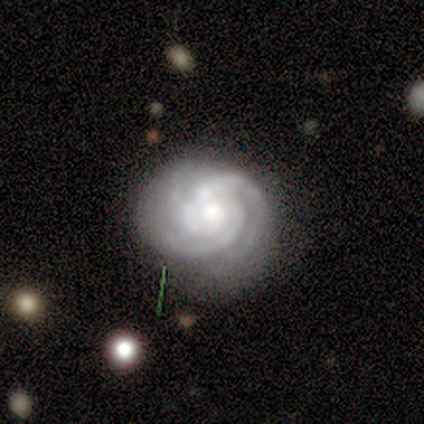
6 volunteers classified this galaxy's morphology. featured or disk 100%, smooth 0%, star or artifact 0%. Down the decision tree: edge-on disk — no (100%); bar — no (100%); spiral arms — yes (100%); spiral arm count — 2 (50%); spiral winding — tight (100%); bulge size — moderate (50%); merging — none (50%).